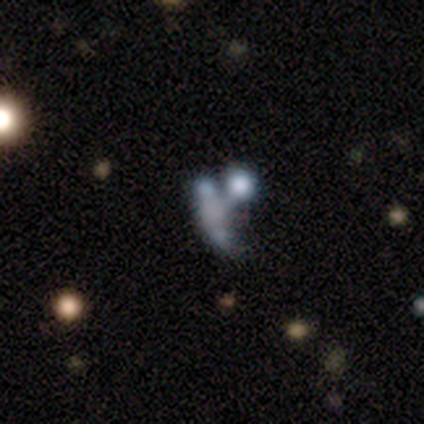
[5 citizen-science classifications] Smooth or featured: featured or disk — 60% (smooth — 20%)
Edge-on disk: no — 100%
Bar: no — 67% (weak — 33%)
Spiral arms: no — 100%
Bulge size: none — 67% (moderate — 33%)
Merging: merger — 75% (major disturbance — 25%)